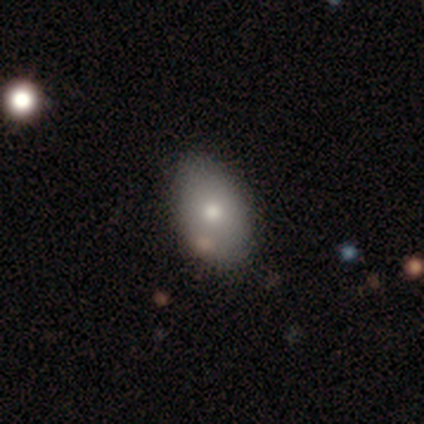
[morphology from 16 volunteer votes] Q: Smooth or featured?
A: smooth (62%); runner-up: featured or disk (31%)
Q: How rounded?
A: in between (80%); runner-up: round (20%)
Q: Merging?
A: none (67%); runner-up: minor disturbance (27%)